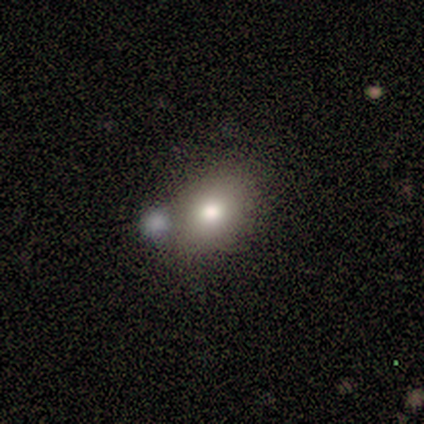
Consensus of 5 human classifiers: Smooth or featured: smooth — 80% (featured or disk — 20%)
How rounded: in between — 50% (round — 25%)
Merging: none — 60% (minor disturbance — 20%)